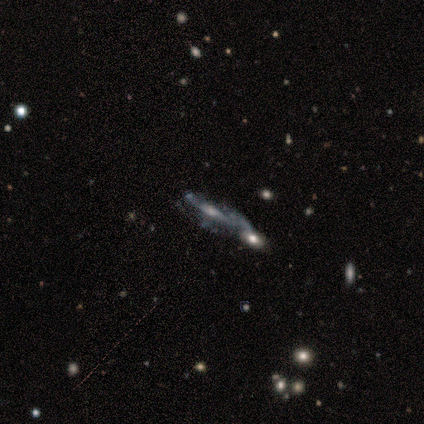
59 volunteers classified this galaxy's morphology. A featured or disk galaxy (85%) with no bar (57%), medium (50%) spiral arms (76%) and a small central bulge (46%). Merging: none (38%).